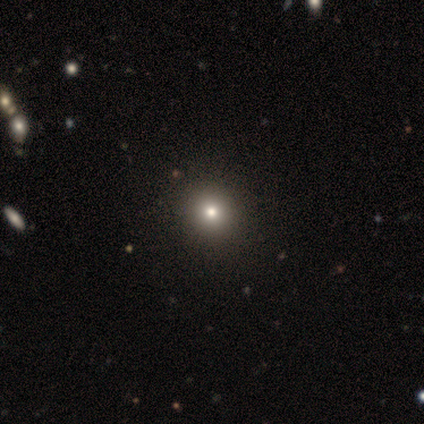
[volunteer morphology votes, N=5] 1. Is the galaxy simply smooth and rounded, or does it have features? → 100% smooth, 0% featured or disk, 0% star or artifact.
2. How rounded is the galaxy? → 100% round, 0% in between, 0% cigar-shaped.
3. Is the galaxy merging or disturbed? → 100% none, 0% minor disturbance, 0% major disturbance, 0% merger.